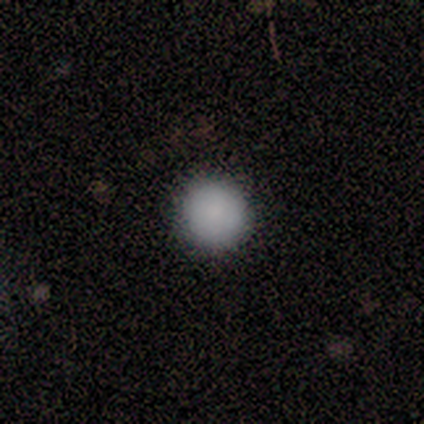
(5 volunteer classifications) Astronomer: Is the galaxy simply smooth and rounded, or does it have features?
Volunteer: smooth — 60%.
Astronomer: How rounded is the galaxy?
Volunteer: round — 100%.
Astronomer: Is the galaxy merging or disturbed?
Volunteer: none — 75%.